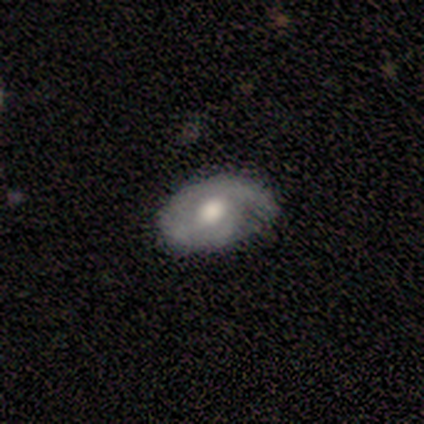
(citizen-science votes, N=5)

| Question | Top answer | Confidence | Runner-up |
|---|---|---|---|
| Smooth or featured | featured or disk | 60% | smooth (40%) |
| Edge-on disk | no | 100% | — |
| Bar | no | 67% | weak (33%) |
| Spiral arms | yes | 100% | — |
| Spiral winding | tight | 67% | loose (33%) |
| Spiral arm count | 1 | 67% | 2 (33%) |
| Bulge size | dominant | 33% | tied: large (33%), moderate (33%) |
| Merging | none | 60% | minor disturbance (40%) |